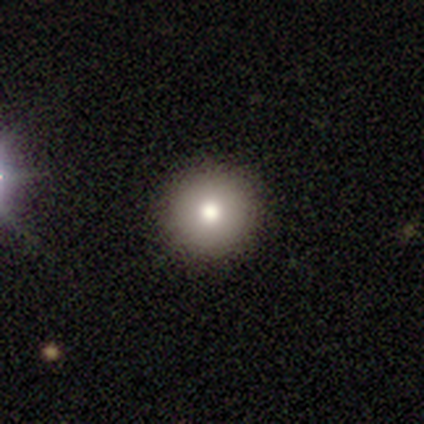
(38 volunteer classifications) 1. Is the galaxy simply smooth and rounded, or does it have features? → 82% smooth, 11% featured or disk, 8% star or artifact.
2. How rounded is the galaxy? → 100% round, 0% in between, 0% cigar-shaped.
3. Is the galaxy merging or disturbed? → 91% none, 6% minor disturbance, 3% major disturbance, 0% merger.